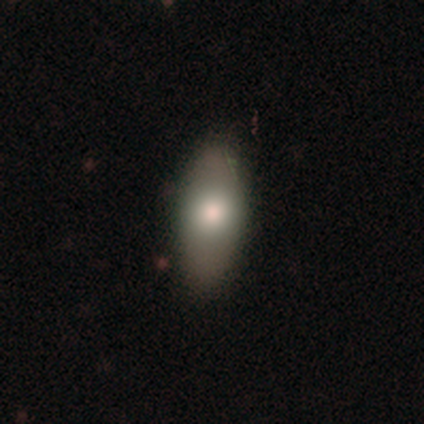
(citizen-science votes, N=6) Smooth or featured?
  - smooth: 50% * (tied)
  - featured or disk: 50% * (tied)
  - star or artifact: 0%
How rounded?
  - in between: 100% *
  - round: 0%
  - cigar-shaped: 0%
Merging?
  - none: 100% *
  - minor disturbance: 0%
  - major disturbance: 0%
  - merger: 0%